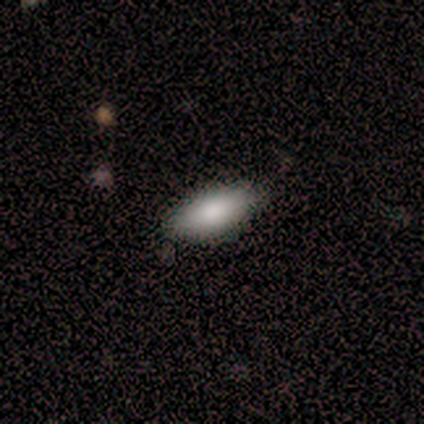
Smooth or featured? smooth (88%)
How rounded? in between (100%)
Merging? none (75%)